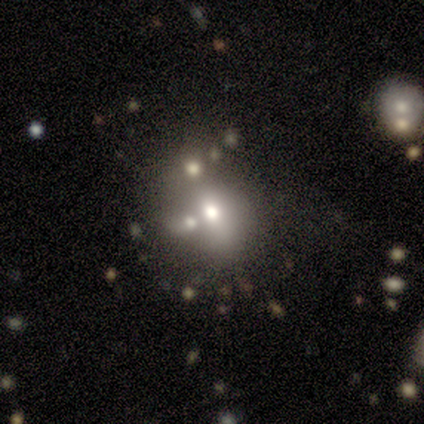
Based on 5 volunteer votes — Smooth or featured? 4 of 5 (80%) said smooth. How rounded? 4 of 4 (100%) said in between. Merging? 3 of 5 (60%) said none.